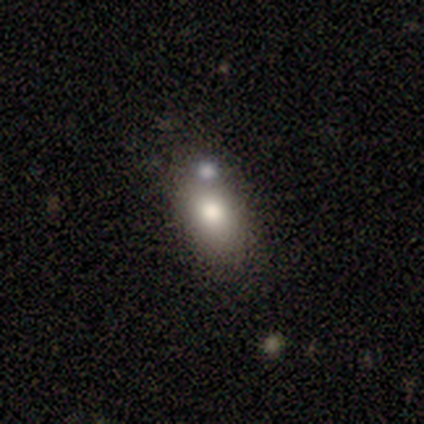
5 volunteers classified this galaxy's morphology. Smooth or featured? 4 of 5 (80%) said smooth. How rounded? 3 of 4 (75%) said in between. Merging? 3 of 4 (75%) said none.